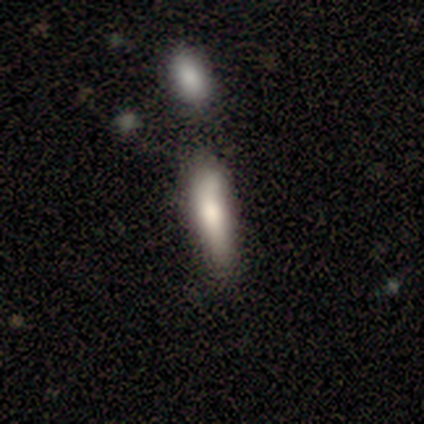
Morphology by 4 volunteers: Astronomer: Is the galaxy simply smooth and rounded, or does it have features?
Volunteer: smooth — 75%.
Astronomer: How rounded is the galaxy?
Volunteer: in between — 67%.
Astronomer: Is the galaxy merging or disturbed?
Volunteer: none — 75%.